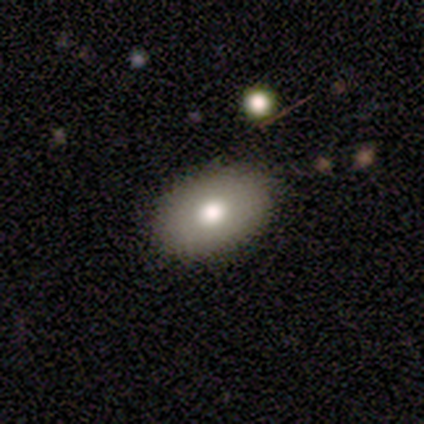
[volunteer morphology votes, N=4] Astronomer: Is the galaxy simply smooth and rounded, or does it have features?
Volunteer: smooth — 75%.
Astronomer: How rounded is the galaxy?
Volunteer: in between — 67%.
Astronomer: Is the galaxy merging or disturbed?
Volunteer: none — 75%.